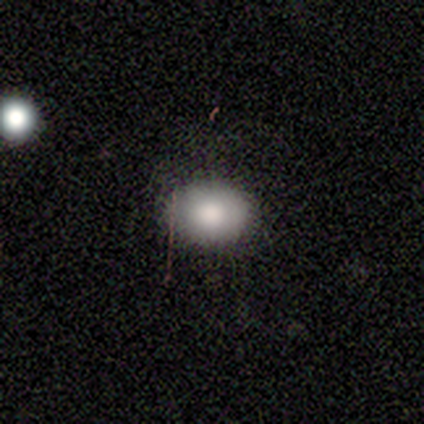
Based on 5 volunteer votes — smooth-or-featured: smooth: 100% | featured or disk: 0% | star or artifact: 0%
  how-rounded: in between: 60% | round: 40% | cigar-shaped: 0%
  merging: none: 80% | minor disturbance: 20% | major disturbance: 0% | merger: 0%